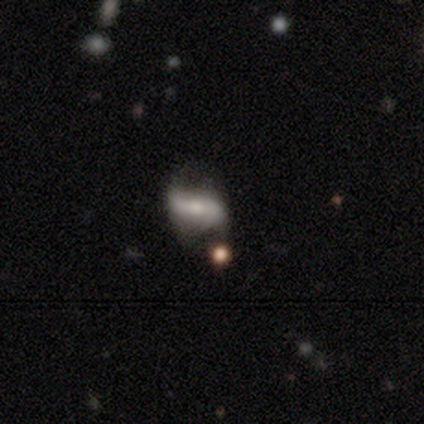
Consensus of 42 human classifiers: smooth_or_featured: featured or disk (p=0.55) [alt: smooth p=0.33]
disk_edge_on: no (p=0.83) [alt: yes p=0.17]
bar: strong (p=0.53) [alt: weak p=0.26]
has_spiral_arms: yes (p=0.84) [alt: no p=0.16]
spiral_winding: loose (p=0.75) [alt: tight p=0.12]
spiral_arm_count: 2 (p=0.94) [alt: can't tell p=0.06]
bulge_size: moderate (p=0.42) [alt: small p=0.37]
merging: none (p=0.59) [alt: major disturbance p=0.24]